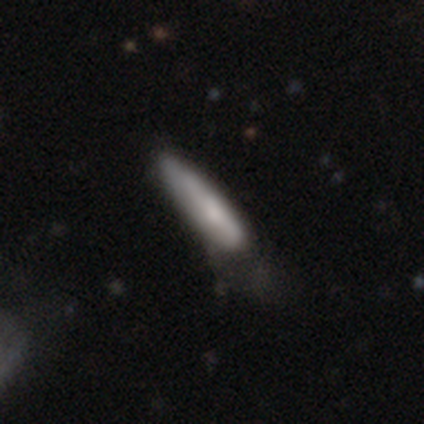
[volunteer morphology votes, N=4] Smooth or featured: smooth — 75% (featured or disk — 25%)
How rounded: cigar-shaped — 100%
Merging: none — 50% (minor disturbance — 25%)